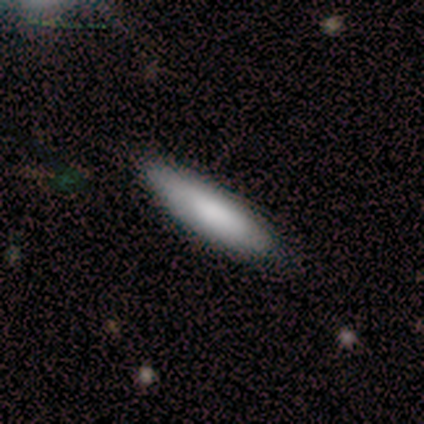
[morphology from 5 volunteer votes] type=smooth (100%); roundness=in between (60%); merging=none (80%).